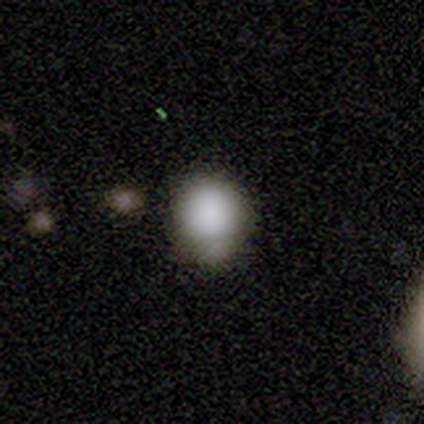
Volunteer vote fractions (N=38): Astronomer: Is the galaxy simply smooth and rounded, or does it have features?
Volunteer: smooth — 87%.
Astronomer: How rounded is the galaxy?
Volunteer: round — 94%.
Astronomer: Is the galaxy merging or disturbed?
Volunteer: none — 69%.